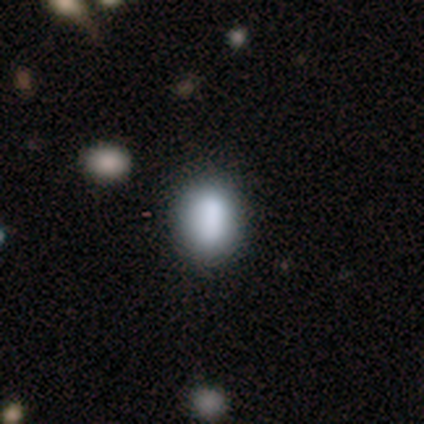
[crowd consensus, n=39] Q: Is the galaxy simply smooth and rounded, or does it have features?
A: smooth — 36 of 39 (92%).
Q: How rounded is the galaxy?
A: in between — 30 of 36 (83%).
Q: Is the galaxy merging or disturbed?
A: none — 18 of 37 (49%).